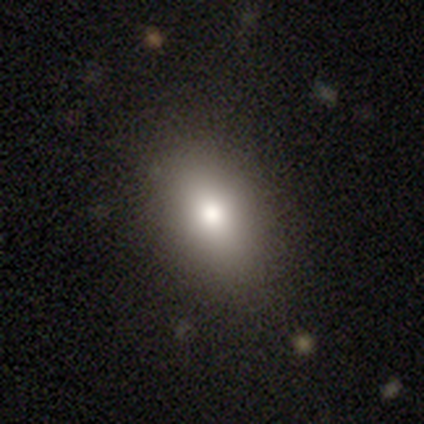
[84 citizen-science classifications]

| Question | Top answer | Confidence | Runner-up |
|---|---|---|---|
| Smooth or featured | smooth | 81% | featured or disk (10%) |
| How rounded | in between | 79% | round (16%) |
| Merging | none | 78% | minor disturbance (14%) |